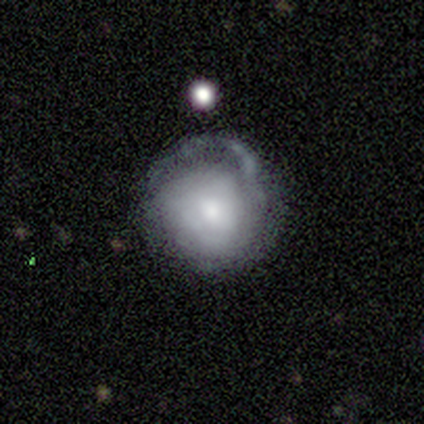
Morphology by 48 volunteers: smooth-or-featured: featured or disk: 56% | smooth: 35% | star or artifact: 8%
  disk-edge-on: no: 100% | yes: 0%
    bar: no: 85% | weak: 15% | strong: 0%
    has-spiral-arms: yes: 67% | no: 33%
      spiral-winding: tight: 72% | loose: 22% | medium: 6%
      spiral-arm-count: can't tell: 50% | 1: 28% | 2: 11% | 3: 11% | 4: 0% | more than 4: 0%
    bulge-size: moderate: 52% | small: 26% | large: 11% | none: 7% | dominant: 4%
  merging: none: 34% (tied) | major disturbance: 34% (tied) | minor disturbance: 30% | merger: 2%